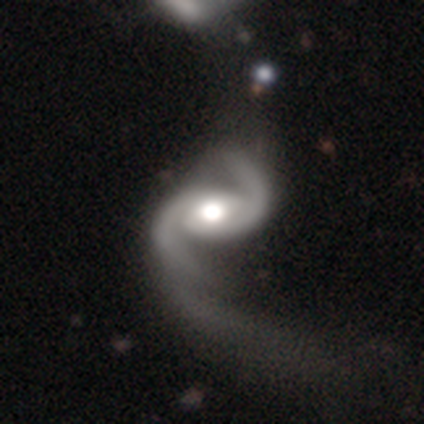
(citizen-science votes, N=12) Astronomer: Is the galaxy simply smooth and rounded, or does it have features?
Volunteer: featured or disk — 92%.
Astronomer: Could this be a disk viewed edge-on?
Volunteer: no — 100%.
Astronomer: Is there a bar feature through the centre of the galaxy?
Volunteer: no — 64%.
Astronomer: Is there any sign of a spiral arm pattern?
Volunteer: yes — 100%.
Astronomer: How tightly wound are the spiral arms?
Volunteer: medium — 64%.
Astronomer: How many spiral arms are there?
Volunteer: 2 — 100%.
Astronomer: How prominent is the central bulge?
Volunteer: moderate — 55% (runner-up: large, 45%).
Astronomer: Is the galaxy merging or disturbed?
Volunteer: major disturbance — 55%.